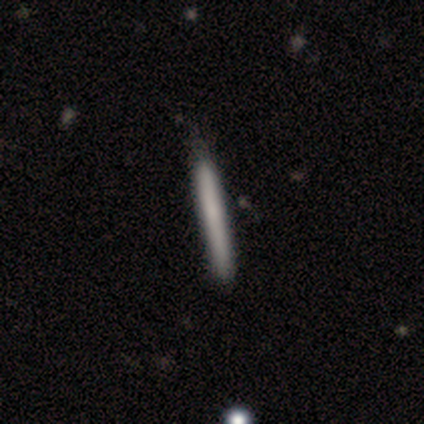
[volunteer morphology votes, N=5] This is clearly a smooth galaxy (100%). How rounded: clearly cigar-shaped (100%). Merging: clearly none (100%).